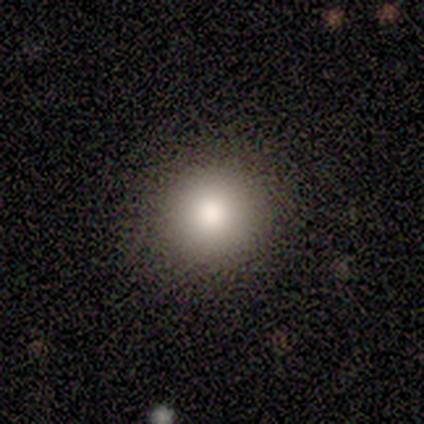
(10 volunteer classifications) smooth-or-featured: smooth: 80% | featured or disk: 20% | star or artifact: 0%
  how-rounded: round: 88% | in between: 12% | cigar-shaped: 0%
  merging: none: 90% | minor disturbance: 10% | major disturbance: 0% | merger: 0%